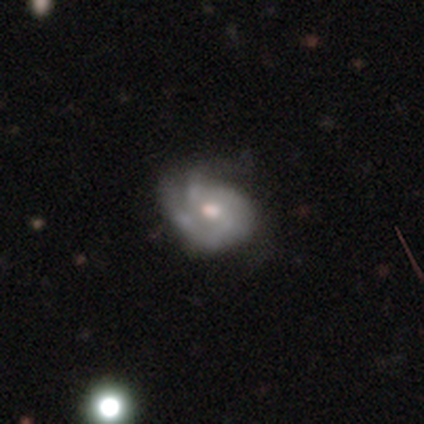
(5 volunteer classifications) Morphology: type=smooth (60%); roundness=in between (67%); merging=none (80%).